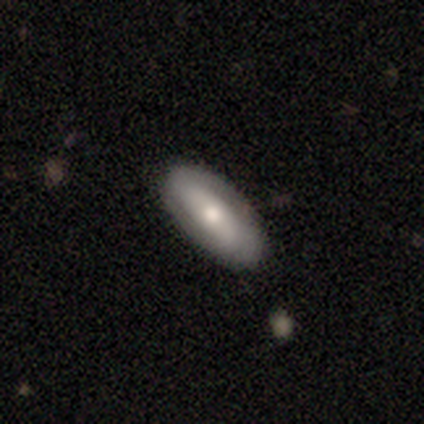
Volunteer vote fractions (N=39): Smooth or featured? 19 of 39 (49%) said smooth. How rounded? 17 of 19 (89%) said in between. Merging? 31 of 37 (84%) said none.